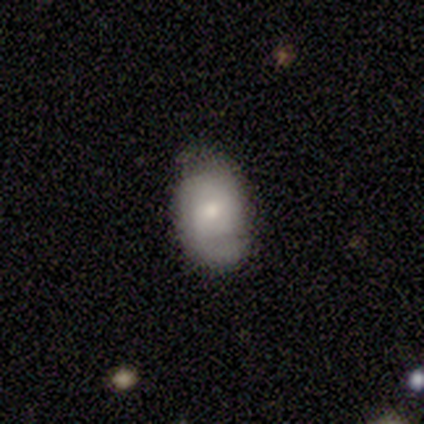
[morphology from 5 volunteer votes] A featured or disk galaxy (60%) with no bar (100%), 2 (100%) tight (50%, tied with medium) spiral arms (67%) and a small central bulge (100%).

Vote fractions:
- Smooth or featured? featured or disk: 60% / smooth: 20% / star or artifact: 20%
- Edge-on disk? no: 100% / yes: 0%
- Bar? no: 100% / strong: 0% / weak: 0%
- Spiral arms? yes: 67% / no: 33%
- Spiral winding? tight: 50% (tied) / medium: 50% (tied) / loose: 0%
- Spiral arm count? 2: 100% / 1: 0% / 3: 0% / 4: 0% / more than 4: 0% / can't tell: 0%
- Bulge size? small: 100% / dominant: 0% / large: 0% / moderate: 0% / none: 0%
- Merging? none: 50% (tied) / minor disturbance: 50% (tied) / major disturbance: 0% / merger: 0%